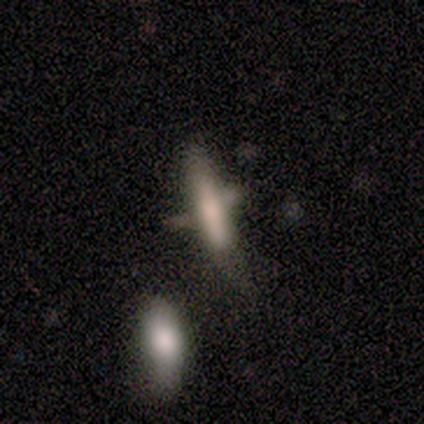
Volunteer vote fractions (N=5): Q: Smooth or featured?
A: smooth (60%); runner-up: featured or disk (40%)
Q: How rounded?
A: cigar-shaped (67%); runner-up: in between (33%)
Q: Merging?
A: major disturbance (60%); runner-up: none (20%)